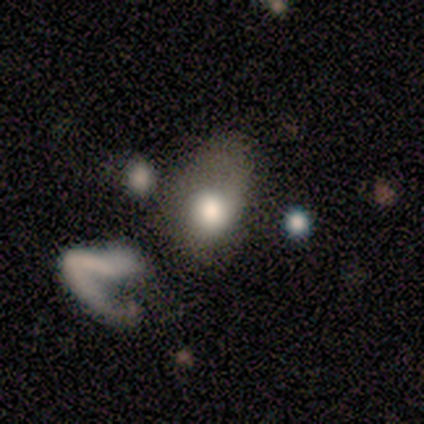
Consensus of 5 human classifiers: smooth-or-featured: smooth: 80% | featured or disk: 20% | star or artifact: 0%
  how-rounded: in between: 75% | round: 25% | cigar-shaped: 0%
  merging: major disturbance: 60% | none: 40% | minor disturbance: 0% | merger: 0%